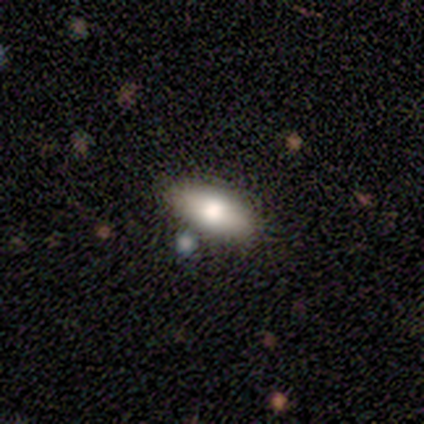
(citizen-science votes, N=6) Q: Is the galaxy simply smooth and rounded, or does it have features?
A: smooth — 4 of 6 (67%).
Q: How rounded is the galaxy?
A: in between — 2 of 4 (50%).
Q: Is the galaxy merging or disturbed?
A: none — 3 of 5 (60%).